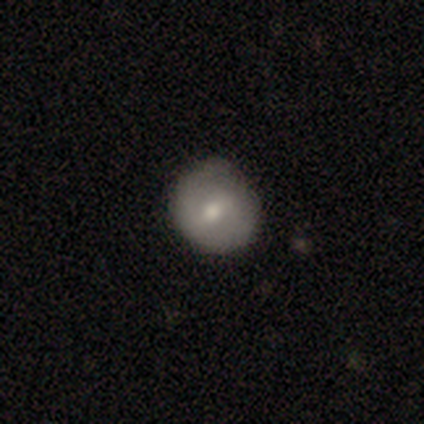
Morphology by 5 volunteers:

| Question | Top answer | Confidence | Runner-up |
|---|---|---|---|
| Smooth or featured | smooth | 80% | featured or disk (20%) |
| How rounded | round | 100% | — |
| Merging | none | 80% | minor disturbance (20%) |